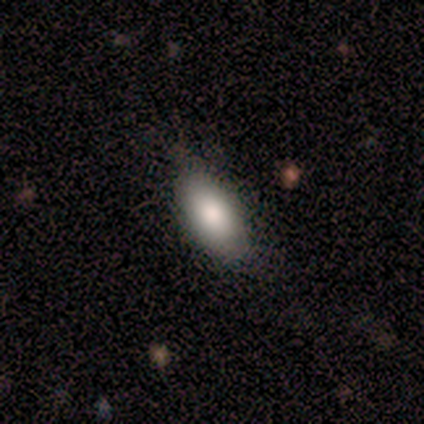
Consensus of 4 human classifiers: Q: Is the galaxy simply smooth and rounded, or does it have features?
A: smooth — 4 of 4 (100%).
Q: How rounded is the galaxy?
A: in between — 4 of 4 (100%).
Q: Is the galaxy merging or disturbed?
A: none — 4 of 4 (100%).